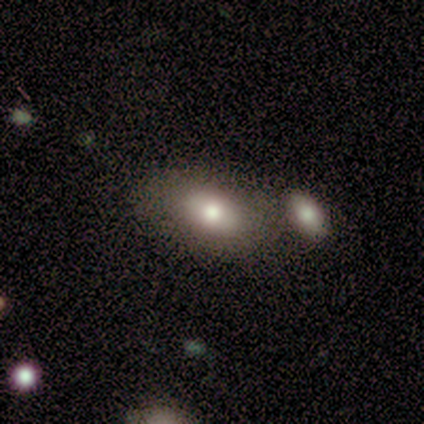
Volunteers were most divided on "bulge size": moderate: 67%, large: 33%, dominant: 0%, small: 0%, none: 0%. More confident: edge-on disk — no (100%); bar — no (100%); spiral arms — no (100%); merging — merger (75%); smooth or featured — featured or disk (60%).